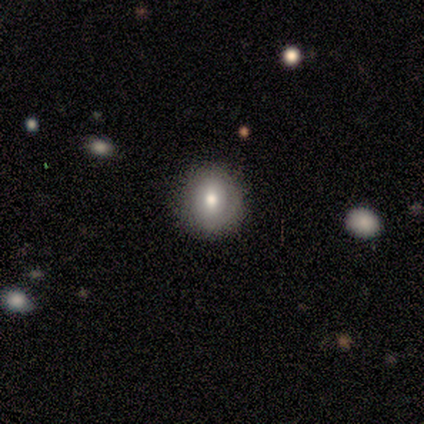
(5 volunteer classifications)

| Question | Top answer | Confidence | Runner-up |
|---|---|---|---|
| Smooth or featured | smooth | 60% | featured or disk (40%) |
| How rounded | round | 67% | in between (33%) |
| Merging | none | 80% | minor disturbance (20%) |